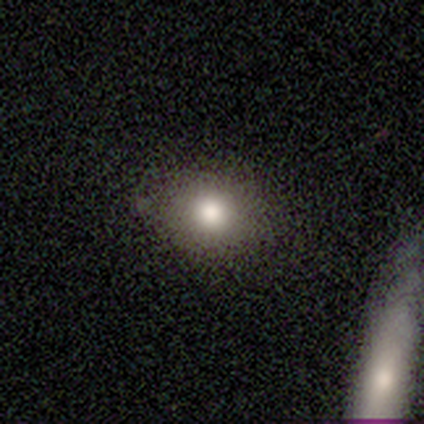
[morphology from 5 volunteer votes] Smooth or featured: smooth — 100%
How rounded: in between — 60% (round — 40%)
Merging: none — 80% (minor disturbance — 20%)